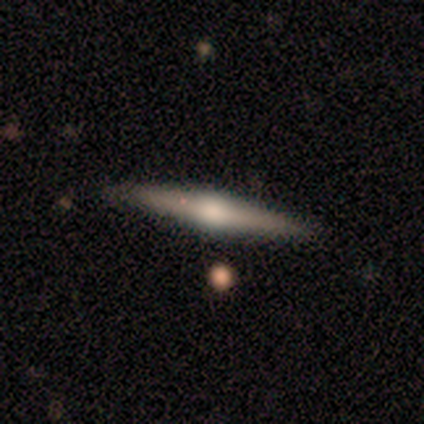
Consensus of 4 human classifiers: Overall: featured or disk (75%). Edge-on disk: yes (100%). Edge-on bulge: rounded (67%; boxy 33%). Merging: none (75%).